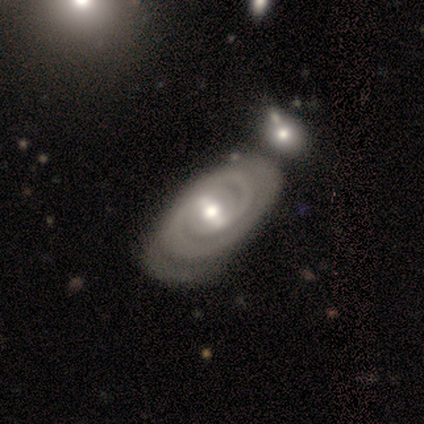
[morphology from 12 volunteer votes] Smooth or featured: featured or disk — 100%
Edge-on disk: no — 92% (yes — 8%)
Bar: weak — 36% (tied with no — 36%)
Spiral arms: yes — 91% (no — 9%)
Spiral winding: tight — 90% (medium — 10%)
Spiral arm count: 2 — 60% (3 — 10%)
Bulge size: moderate — 64% (small — 36%)
Merging: none — 75% (merger — 17%)